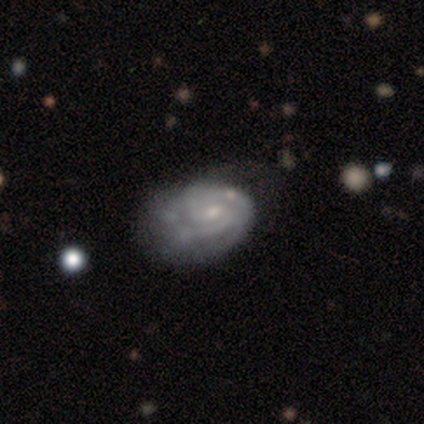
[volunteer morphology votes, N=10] smooth-or-featured: featured or disk: 90% | smooth: 10% | star or artifact: 0%
  disk-edge-on: no: 100% | yes: 0%
    bar: no: 56% | weak: 44% | strong: 0%
    has-spiral-arms: yes: 89% | no: 11%
      spiral-winding: tight: 75% | medium: 12% | loose: 12%
      spiral-arm-count: 2: 62% | 3: 38% | 1: 0% | 4: 0% | more than 4: 0% | can't tell: 0%
    bulge-size: small: 78% | moderate: 22% | dominant: 0% | large: 0% | none: 0%
  merging: none: 50% | merger: 30% | minor disturbance: 10% | major disturbance: 10%